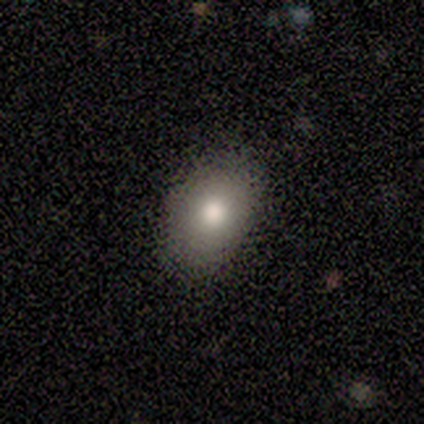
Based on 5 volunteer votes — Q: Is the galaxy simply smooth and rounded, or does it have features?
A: smooth — 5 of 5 (100%).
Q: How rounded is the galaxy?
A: in between — 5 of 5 (100%).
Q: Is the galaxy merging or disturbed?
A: none — 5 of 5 (100%).